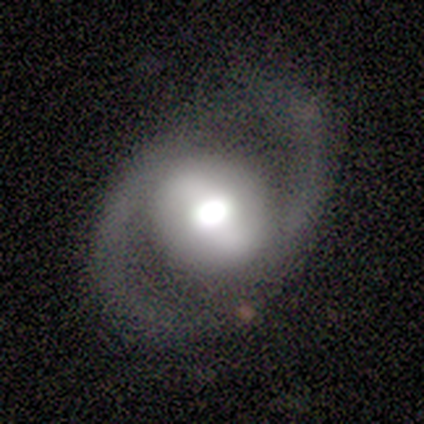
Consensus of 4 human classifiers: Smooth or featured? 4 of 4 (100%) said featured or disk. Edge-on disk? 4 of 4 (100%) said no. Bar? 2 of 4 (50%, tied with weak) said strong. Spiral arms? 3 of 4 (75%) said yes. Spiral winding? 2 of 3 (67%) said loose. Spiral arm count? 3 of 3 (100%) said 2. Bulge size? 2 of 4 (50%, tied with moderate) said large. Merging? 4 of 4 (100%) said none.